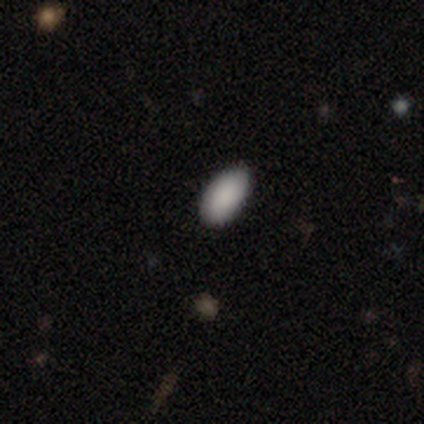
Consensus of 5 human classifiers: Q: Smooth or featured?
A: smooth (80%); runner-up: star or artifact (20%)
Q: How rounded?
A: in between (100%)
Q: Merging?
A: none (50%); runner-up: minor disturbance (25%)